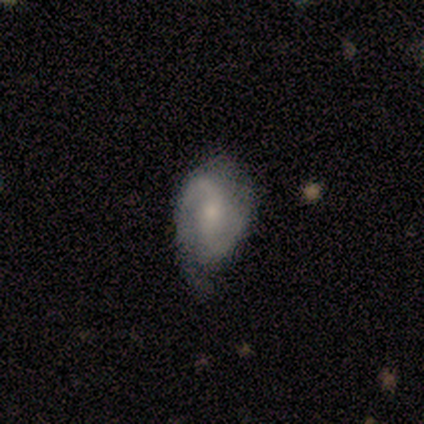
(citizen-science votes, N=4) Overall: featured or disk (75%). Edge-on disk: no (100%). Bar: strong (33%, tied with weak and no). Spiral arms: yes (100%). Spiral arm count: 2 (100%). Spiral winding: medium (100%). Bulge size: small (100%). Merging: none (75%).